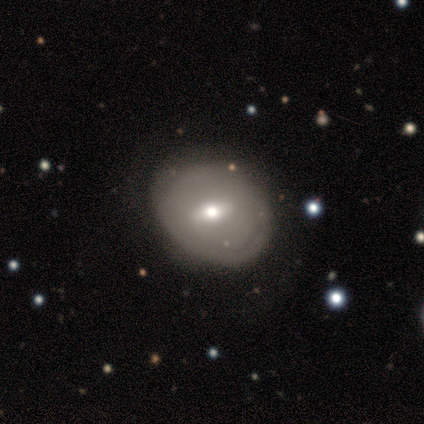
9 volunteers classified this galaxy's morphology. Smooth or featured: featured or disk — 78% (smooth — 11%)
Edge-on disk: no — 100%
Bar: weak — 100%
Spiral arms: no — 57% (yes — 43%)
Bulge size: moderate — 71% (small — 29%)
Merging: none — 50% (tied with minor disturbance — 50%)